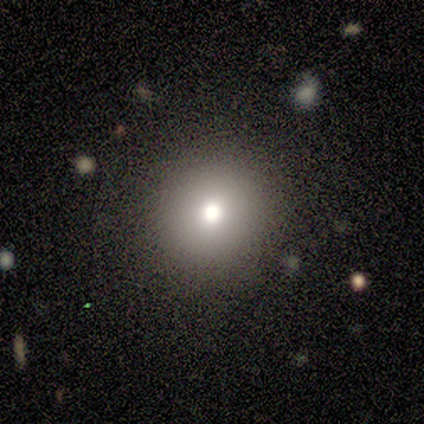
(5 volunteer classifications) Smooth or featured? smooth (40%, tied with featured or disk)
How rounded? round (100%)
Merging? none (75%)